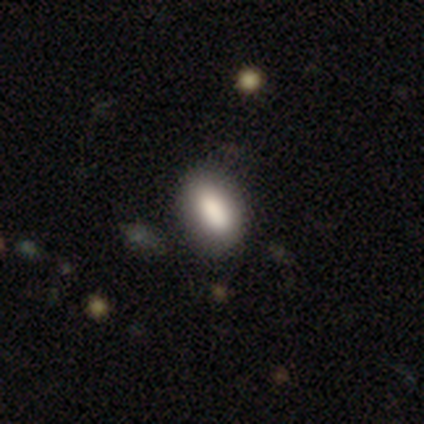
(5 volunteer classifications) Morphology: type=smooth (100%); roundness=in between (100%); merging=none (100%).